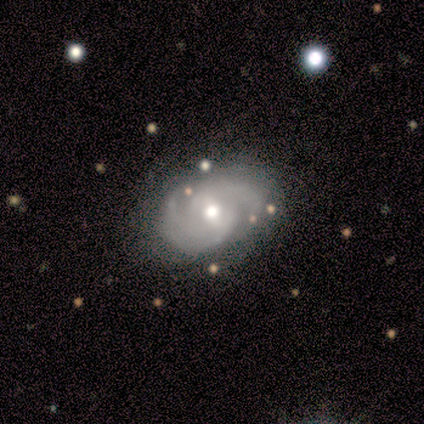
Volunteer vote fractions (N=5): Morphology: type=featured or disk (100%); edge-on=no (100%); bar=no (60%); spiral arms=yes (100%); winding=tight (100%); arm count=2 (60%); bulge=small (80%); merging=none (100%).